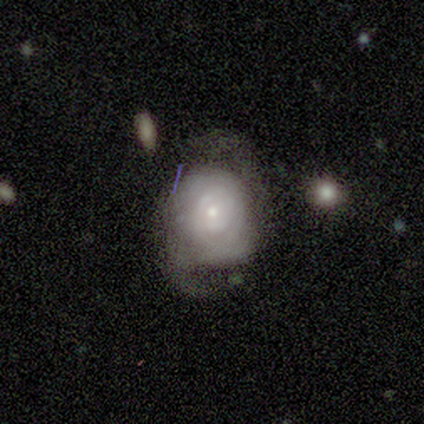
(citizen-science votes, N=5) Smooth or featured: featured or disk — 60% (smooth — 20%)
Edge-on disk: no — 100%
Bar: no — 100%
Spiral arms: yes — 100%
Spiral winding: tight — 67% (medium — 33%)
Spiral arm count: 2 — 33% (tied with more than 4 — 33%; can't tell — 33%)
Bulge size: small — 100%
Merging: none — 50% (tied with minor disturbance — 50%)